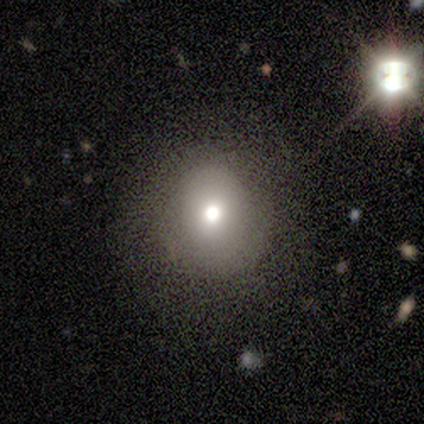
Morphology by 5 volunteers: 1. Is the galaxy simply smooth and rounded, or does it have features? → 60% smooth, 40% featured or disk, 0% star or artifact.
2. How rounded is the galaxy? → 100% round, 0% in between, 0% cigar-shaped.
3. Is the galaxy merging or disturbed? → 60% none, 20% minor disturbance, 20% major disturbance, 0% merger.